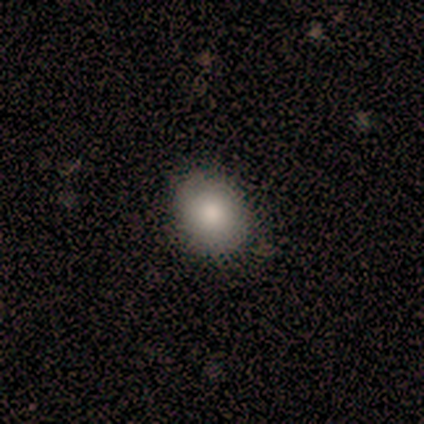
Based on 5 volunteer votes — Smooth or featured?
  - smooth: 60% *
  - featured or disk: 40%
  - star or artifact: 0%
How rounded?
  - in between: 67% *
  - round: 33%
  - cigar-shaped: 0%
Merging?
  - none: 80% *
  - minor disturbance: 20%
  - major disturbance: 0%
  - merger: 0%